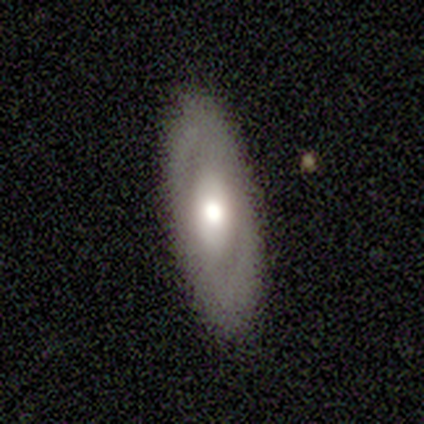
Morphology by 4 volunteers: A featured or disk galaxy (50%) with no bar (100%), no spiral arms (100%) and a moderate central bulge (100%).

Vote fractions:
- Smooth or featured? featured or disk: 50% / smooth: 25% / star or artifact: 25%
- Edge-on disk? no: 100% / yes: 0%
- Bar? no: 100% / strong: 0% / weak: 0%
- Spiral arms? no: 100% / yes: 0%
- Bulge size? moderate: 100% / dominant: 0% / large: 0% / small: 0% / none: 0%
- Merging? none: 100% / minor disturbance: 0% / major disturbance: 0% / merger: 0%